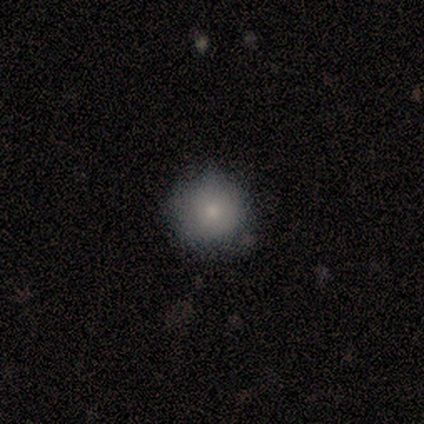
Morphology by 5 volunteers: Q: Smooth or featured?
A: smooth (80%); runner-up: featured or disk (20%)
Q: How rounded?
A: round (100%)
Q: Merging?
A: none (100%)